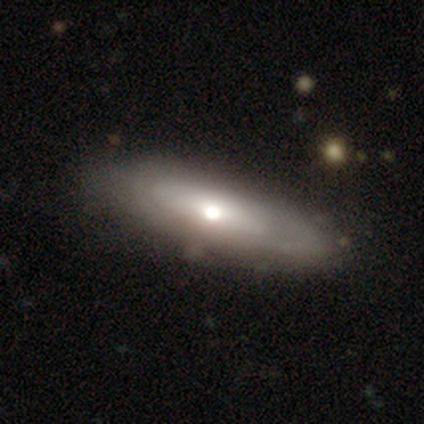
A smooth galaxy with no disk features (55%) that is cigar-shaped (67%). Merging: none (60%).